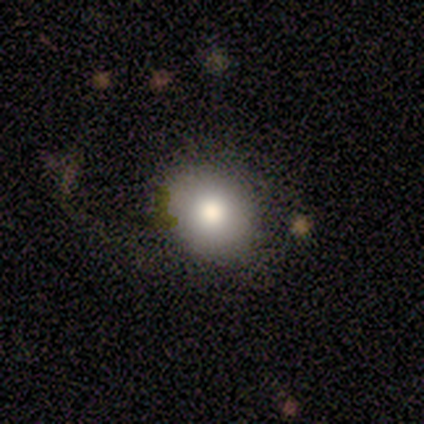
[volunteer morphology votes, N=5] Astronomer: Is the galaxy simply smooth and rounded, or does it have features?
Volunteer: smooth — 80%.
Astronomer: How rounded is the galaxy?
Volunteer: round — 75%.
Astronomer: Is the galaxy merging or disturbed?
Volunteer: none — 75%.